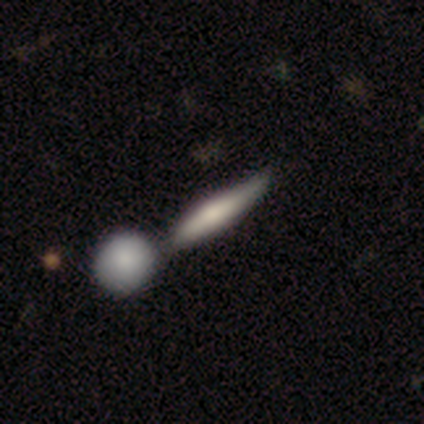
Smooth or featured? smooth (80%)
How rounded? cigar-shaped (100%)
Merging? merger (60%)